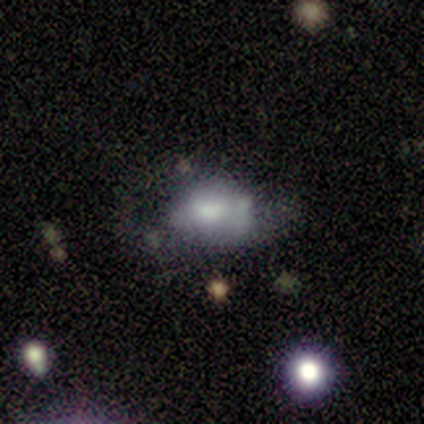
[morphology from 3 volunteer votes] This is likely a featured or disk galaxy (67%). It is clearly not viewed edge-on (100%). Bar: clearly no (100%). Spiral arm pattern: clearly no (100%). Central bulge: possibly moderate (50%, tied with none). Merging: marginally minor disturbance (33%, tied with major disturbance and merger).